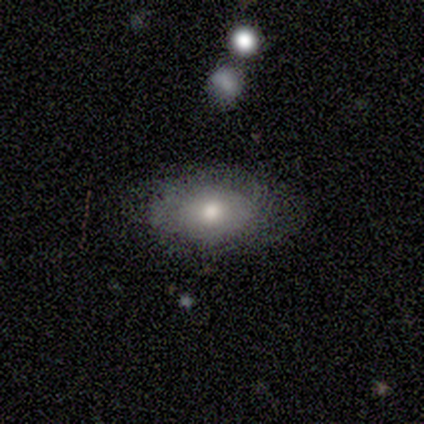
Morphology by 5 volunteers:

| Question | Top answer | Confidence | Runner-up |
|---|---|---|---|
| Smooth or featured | smooth | 60% | featured or disk (40%) |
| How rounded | in between | 100% | — |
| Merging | none | 80% | minor disturbance (20%) |